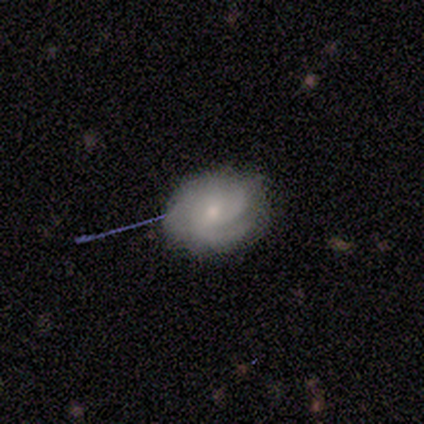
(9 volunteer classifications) Smooth or featured: smooth — 56% (featured or disk — 44%)
How rounded: in between — 80% (round — 20%)
Merging: none — 67% (minor disturbance — 33%)